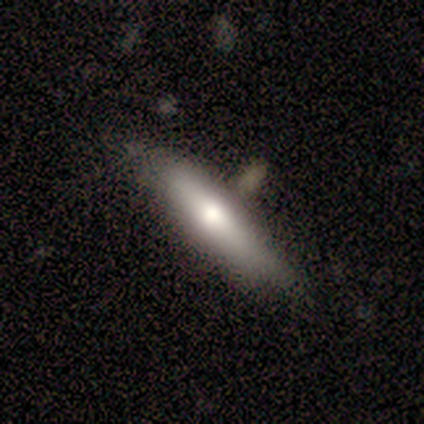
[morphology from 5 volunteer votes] This appears to be a featured or disk galaxy (60%) viewed edge-on (100%) with a rounded central bulge (100%). Merging: none (60%).